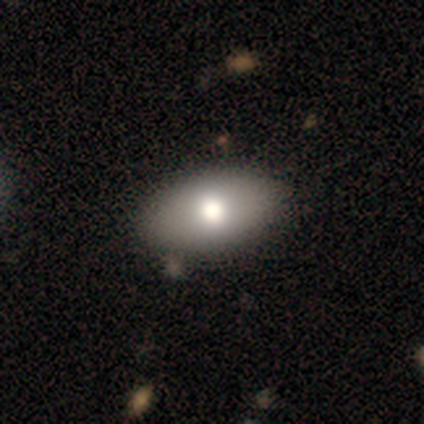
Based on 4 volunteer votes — A smooth galaxy with no disk features (50%, tied with featured or disk) that is in between round and cigar-shaped (100%).

Vote fractions:
- Smooth or featured? smooth: 50% (tied) / featured or disk: 50% (tied) / star or artifact: 0%
- How rounded? in between: 100% / round: 0% / cigar-shaped: 0%
- Merging? none: 100% / minor disturbance: 0% / major disturbance: 0% / merger: 0%